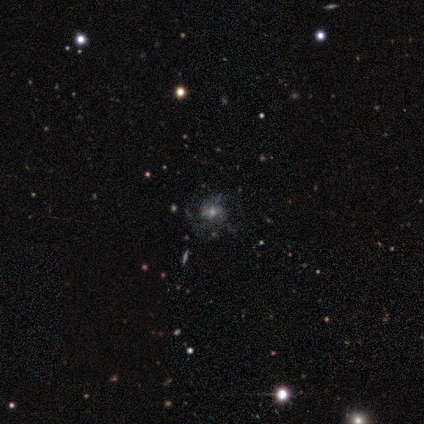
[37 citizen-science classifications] Q: Smooth or featured?
A: featured or disk (51%); runner-up: smooth (35%)
Q: Edge-on disk?
A: no (95%); runner-up: yes (5%)
Q: Bar?
A: no (61%); runner-up: weak (33%)
Q: Spiral arms?
A: yes (50%); tied with: no (50%)
Q: Spiral winding?
A: medium (56%); runner-up: loose (33%)
Q: Spiral arm count?
A: can't tell (44%); runner-up: 3 (33%)
Q: Bulge size?
A: small (50%); runner-up: moderate (39%)
Q: Merging?
A: none (47%); runner-up: major disturbance (25%)